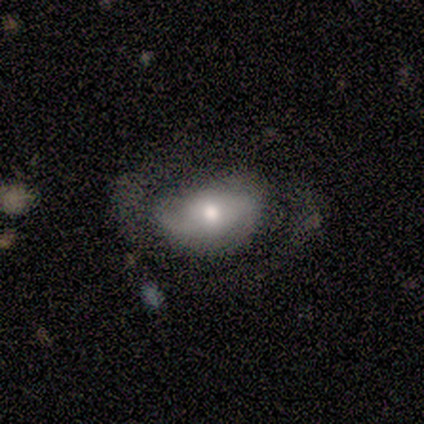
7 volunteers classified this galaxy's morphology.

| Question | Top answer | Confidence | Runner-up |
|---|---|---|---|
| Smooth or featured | featured or disk | 86% | smooth (14%) |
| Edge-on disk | no | 100% | — |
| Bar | no | 83% | weak (17%) |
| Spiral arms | yes | 50% | tied: no (50%) |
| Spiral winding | loose | 67% | tight (33%) |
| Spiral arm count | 2 | 67% | can't tell (33%) |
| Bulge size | small | 83% | moderate (17%) |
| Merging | none | 43% | tied: major disturbance (43%) |